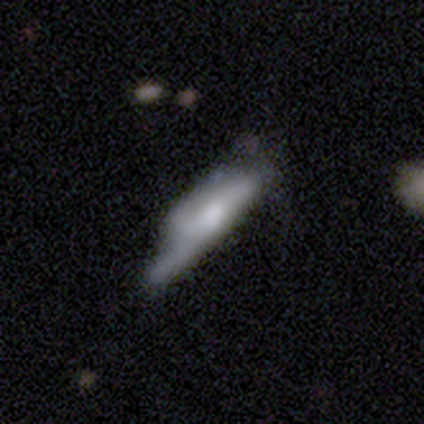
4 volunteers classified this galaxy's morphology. smooth-or-featured: smooth: 75% | featured or disk: 25% | star or artifact: 0%
  how-rounded: cigar-shaped: 67% | in between: 33% | round: 0%
  merging: major disturbance: 75% | none: 25% | minor disturbance: 0% | merger: 0%